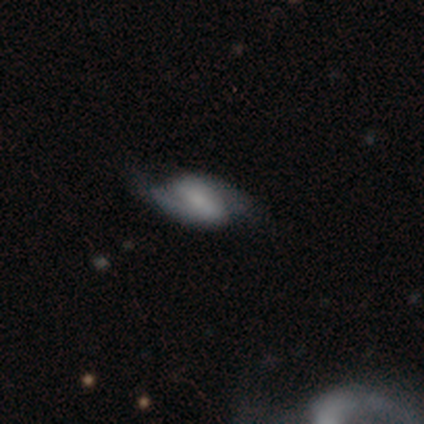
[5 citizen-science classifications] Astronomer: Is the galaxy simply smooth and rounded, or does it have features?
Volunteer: featured or disk — 80%.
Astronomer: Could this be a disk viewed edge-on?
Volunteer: no — 100%.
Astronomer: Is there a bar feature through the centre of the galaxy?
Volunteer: weak — 75%.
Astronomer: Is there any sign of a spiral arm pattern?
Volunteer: yes — 100%.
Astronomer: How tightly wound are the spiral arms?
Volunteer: loose — 75%.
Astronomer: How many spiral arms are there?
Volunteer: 2 — 100%.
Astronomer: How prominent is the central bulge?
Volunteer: small — 50%.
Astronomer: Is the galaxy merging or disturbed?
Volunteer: none — 100%.